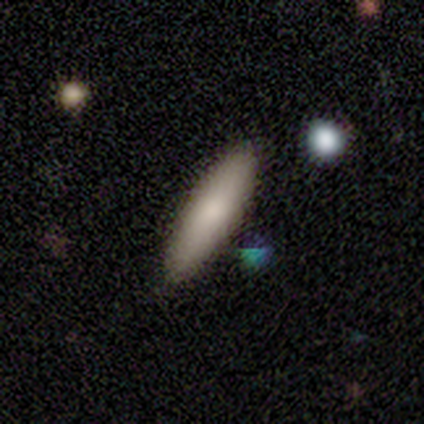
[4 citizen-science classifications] This is likely a smooth galaxy (75%). How rounded: likely cigar-shaped (67%). Merging: likely none (75%).